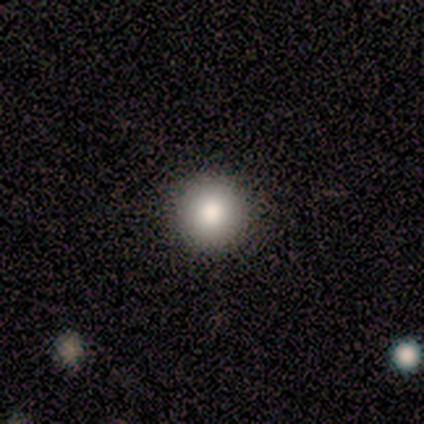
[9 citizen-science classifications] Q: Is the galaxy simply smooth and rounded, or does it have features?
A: smooth — 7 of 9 (78%).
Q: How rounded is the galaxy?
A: round — 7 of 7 (100%).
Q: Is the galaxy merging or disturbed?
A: none — 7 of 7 (100%).